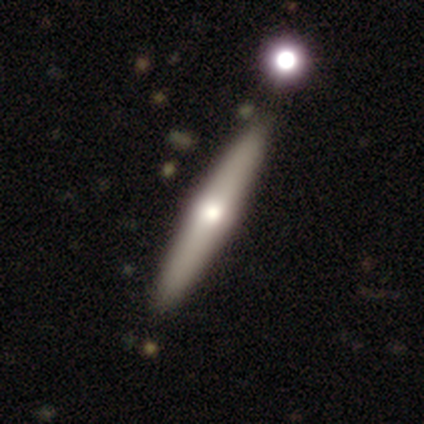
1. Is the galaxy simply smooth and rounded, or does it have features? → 75% featured or disk, 25% smooth, 0% star or artifact.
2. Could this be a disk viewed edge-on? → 67% yes, 33% no.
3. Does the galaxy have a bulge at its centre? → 100% rounded, 0% boxy, 0% none.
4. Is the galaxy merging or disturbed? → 100% none, 0% minor disturbance, 0% major disturbance, 0% merger.